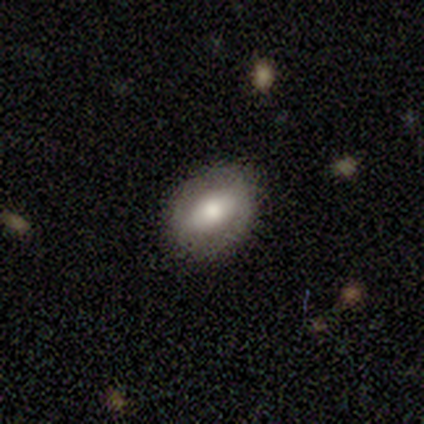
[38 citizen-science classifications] Volunteers were most divided on "how rounded": in between: 62%, round: 38%, cigar-shaped: 0%. More confident: merging — none (95%); smooth or featured — smooth (63%).